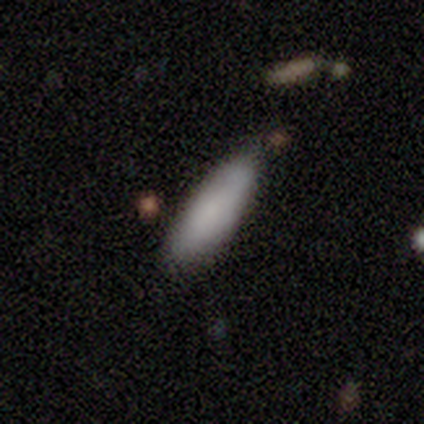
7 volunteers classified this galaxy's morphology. Q: Smooth or featured?
A: smooth (86%); runner-up: featured or disk (14%)
Q: How rounded?
A: in between (83%); runner-up: cigar-shaped (17%)
Q: Merging?
A: none (71%); runner-up: minor disturbance (14%)